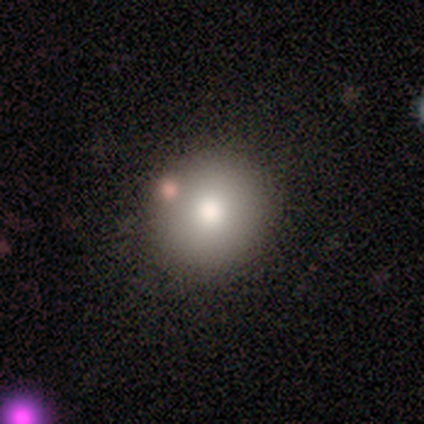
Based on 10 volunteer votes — This appears to be a smooth galaxy with no disk features (80%) that is round (88%). Merging: none (75%).